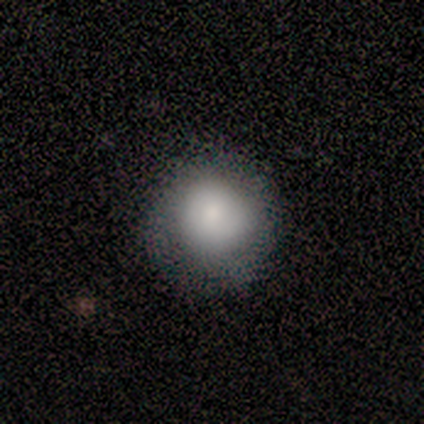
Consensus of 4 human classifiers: Q: Smooth or featured?
A: smooth (75%); runner-up: star or artifact (25%)
Q: How rounded?
A: round (100%)
Q: Merging?
A: none (100%)